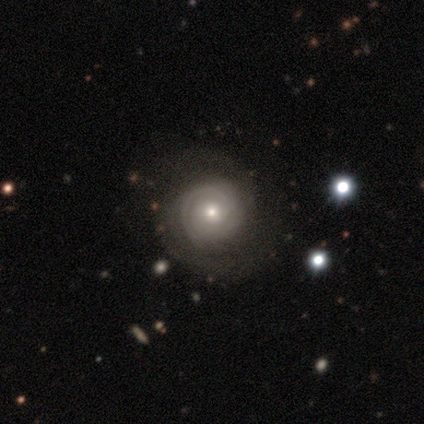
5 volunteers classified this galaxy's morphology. Smooth or featured: featured or disk — 80% (smooth — 20%)
Edge-on disk: no — 100%
Bar: no — 100%
Spiral arms: yes — 75% (no — 25%)
Spiral winding: tight — 100%
Spiral arm count: 2 — 67% (more than 4 — 33%)
Bulge size: moderate — 75% (small — 25%)
Merging: none — 80% (minor disturbance — 20%)